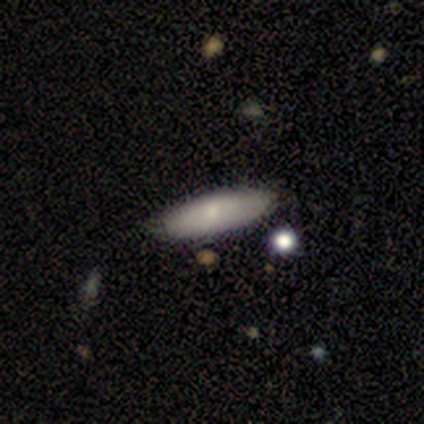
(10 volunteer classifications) Morphology: type=smooth (90%); roundness=cigar-shaped (56%); merging=none (70%).